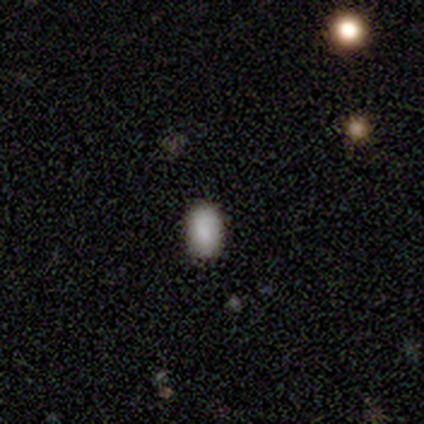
Smooth or featured?
  - smooth: 100% *
  - featured or disk: 0%
  - star or artifact: 0%
How rounded?
  - in between: 100% *
  - round: 0%
  - cigar-shaped: 0%
Merging?
  - none: 100% *
  - minor disturbance: 0%
  - major disturbance: 0%
  - merger: 0%